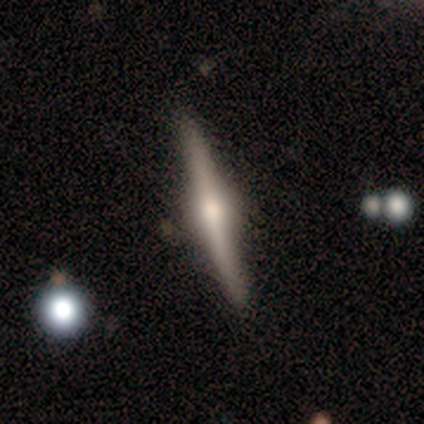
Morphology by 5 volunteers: A featured or disk galaxy (100%) viewed edge-on (100%) with a rounded central bulge (100%). Merging: none (100%).